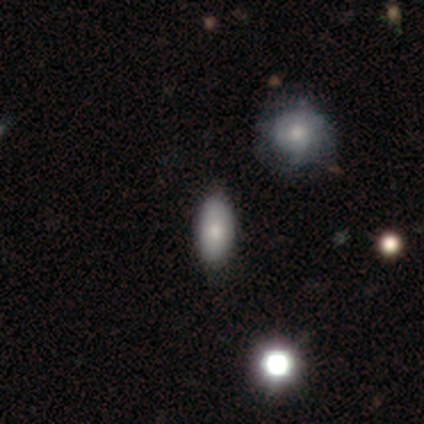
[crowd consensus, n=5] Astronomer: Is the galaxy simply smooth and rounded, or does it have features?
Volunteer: star or artifact — 60% (runner-up: smooth, 40%).